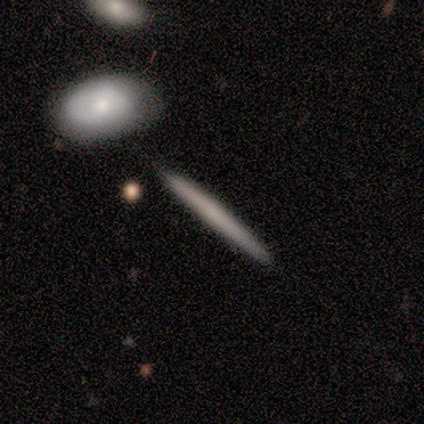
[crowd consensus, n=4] Smooth or featured?
  - smooth: 75% *
  - featured or disk: 25%
  - star or artifact: 0%
How rounded?
  - cigar-shaped: 100% *
  - round: 0%
  - in between: 0%
Merging?
  - none: 100% *
  - minor disturbance: 0%
  - major disturbance: 0%
  - merger: 0%